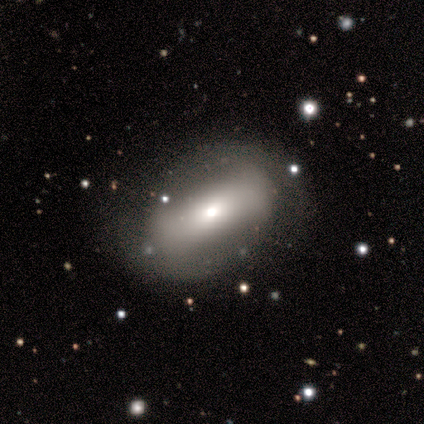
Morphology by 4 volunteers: Q: Smooth or featured?
A: smooth (50%); tied with: featured or disk (50%)
Q: How rounded?
A: in between (100%)
Q: Merging?
A: none (100%)